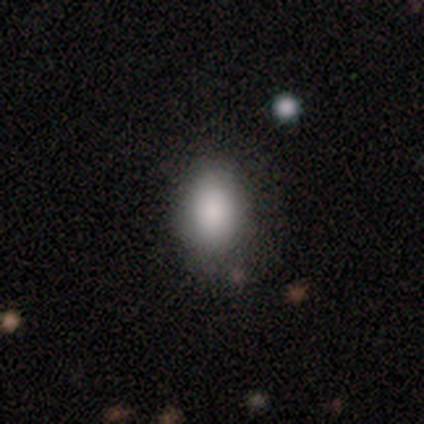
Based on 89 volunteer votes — This is clearly a smooth galaxy (83%). How rounded: clearly in between (81%). Merging: likely none (72%).